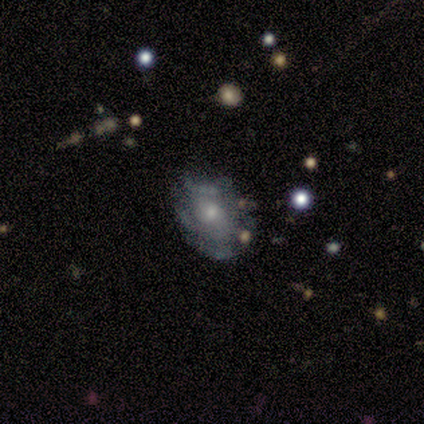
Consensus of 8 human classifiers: A featured or disk galaxy (88%) with no bar (71%), 2 (40%, tied with can't tell) tight (40%, tied with medium) spiral arms (71%) and a small central bulge (71%). Merging: none (62%).